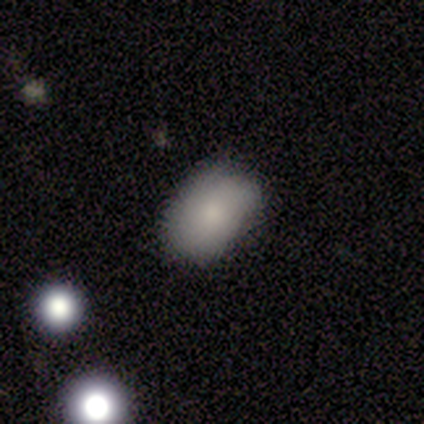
A smooth galaxy with no disk features (80%) that is in between round and cigar-shaped (93%). Merging: none (71%).